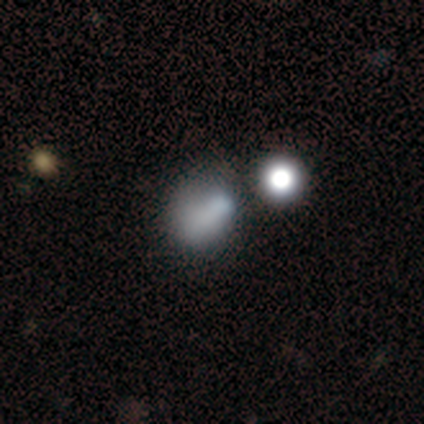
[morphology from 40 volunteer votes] This is likely a smooth galaxy (68%). How rounded: likely round (63%). Merging: marginally none (41%).